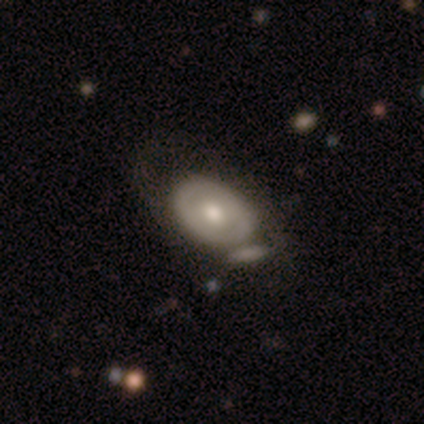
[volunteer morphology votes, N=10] Smooth or featured? 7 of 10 (70%) said featured or disk. Edge-on disk? 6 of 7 (86%) said no. Bar? 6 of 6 (100%) said no. Spiral arms? 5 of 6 (83%) said no. Bulge size? 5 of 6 (83%) said moderate. Merging? 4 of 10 (40%, tied with merger) said none.